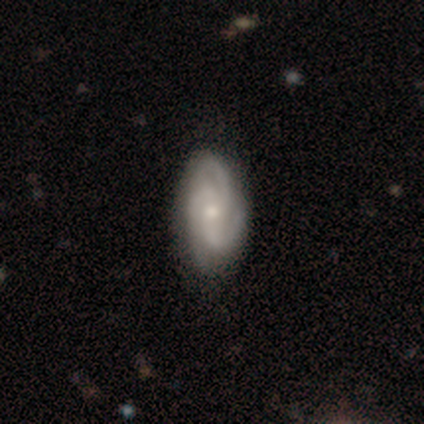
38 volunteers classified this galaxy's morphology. A featured or disk galaxy (82%) with no bar (71%), 3 (71%) medium (52%) spiral arms (100%) and a moderate central bulge (61%). Merging: none (47%).